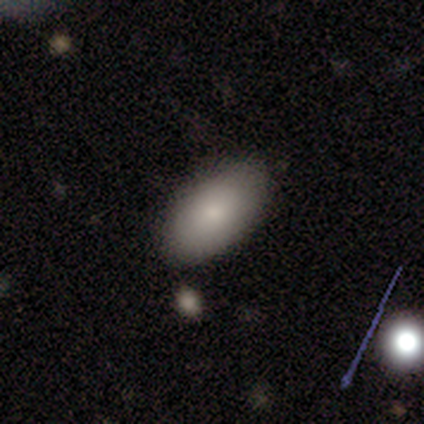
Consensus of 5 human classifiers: This is clearly a smooth galaxy (100%). How rounded: clearly in between (100%). Merging: likely none (60%).